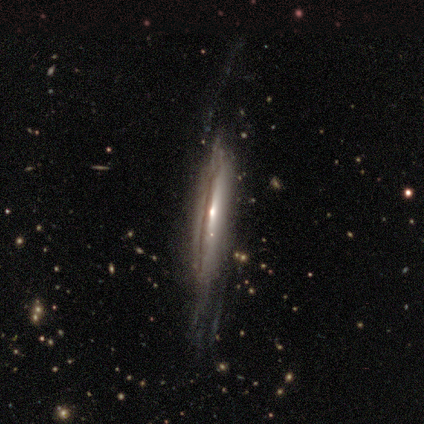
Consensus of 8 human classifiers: A featured or disk galaxy (88%) with a weak bar (43%, tied with no), no spiral arms (57%) and a small central bulge (86%).

Vote fractions:
- Smooth or featured? featured or disk: 88% / smooth: 12% / star or artifact: 0%
- Edge-on disk? no: 100% / yes: 0%
- Bar? weak: 43% (tied) / no: 43% (tied) / strong: 14%
- Spiral arms? no: 57% / yes: 43%
- Bulge size? small: 86% / moderate: 14% / dominant: 0% / large: 0% / none: 0%
- Merging? none: 62% / minor disturbance: 25% / major disturbance: 12% / merger: 0%